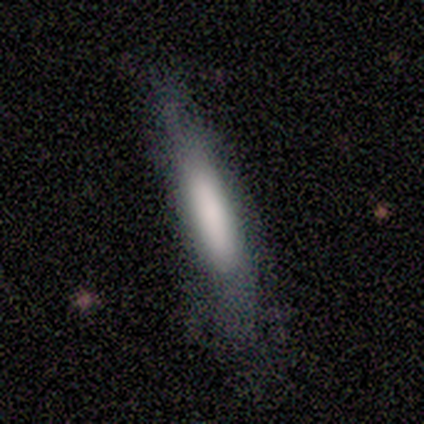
This is clearly a smooth galaxy (80%). How rounded: clearly cigar-shaped (100%). Merging: clearly none (100%).